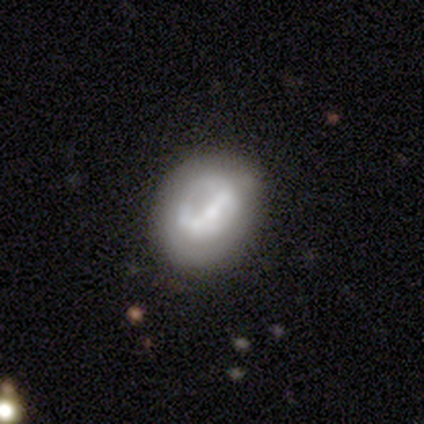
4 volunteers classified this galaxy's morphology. Volunteers were most divided on "bar" (2-way tie): weak: 50%, no: 50%, strong: 0%. More confident: smooth or featured — featured or disk (100%); edge-on disk — no (100%); spiral arms — no (100%); bulge size — large (50%); merging — none (50%).